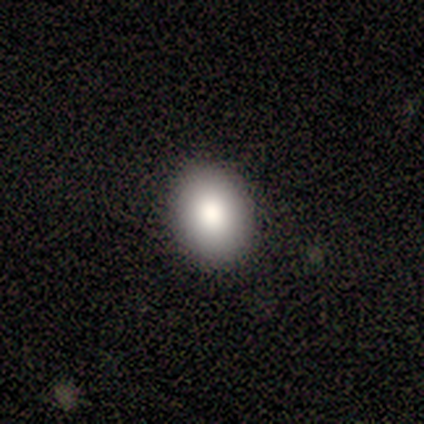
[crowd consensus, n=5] A smooth galaxy with no disk features (80%) that is in between round and cigar-shaped (75%). Merging: none (100%).